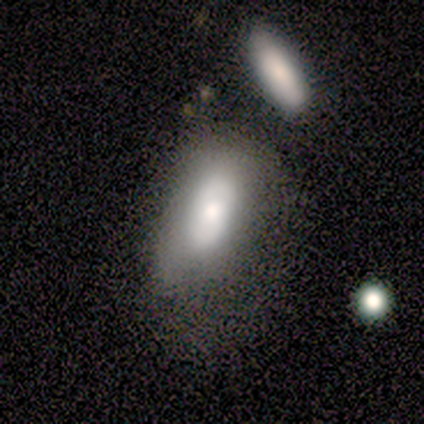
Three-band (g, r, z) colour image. It shows a smooth galaxy with no disk features (80%) that is in between round and cigar-shaped (50%, tied with cigar-shaped). Merging: none (60%).